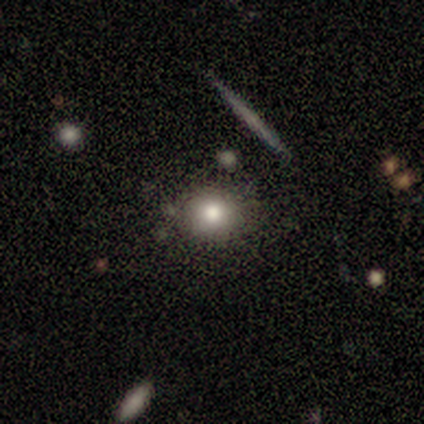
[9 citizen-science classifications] A smooth galaxy with no disk features (67%) that is round (67%).

Vote fractions:
- Smooth or featured? smooth: 67% / star or artifact: 22% / featured or disk: 11%
- How rounded? round: 67% / in between: 33% / cigar-shaped: 0%
- Merging? none: 71% / minor disturbance: 29% / major disturbance: 0% / merger: 0%